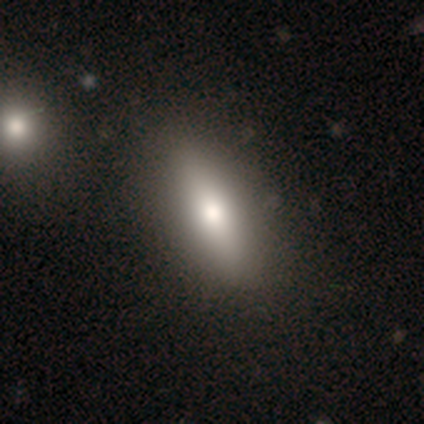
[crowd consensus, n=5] A smooth galaxy with no disk features (80%) that is in between round and cigar-shaped (50%). Merging: none (60%).